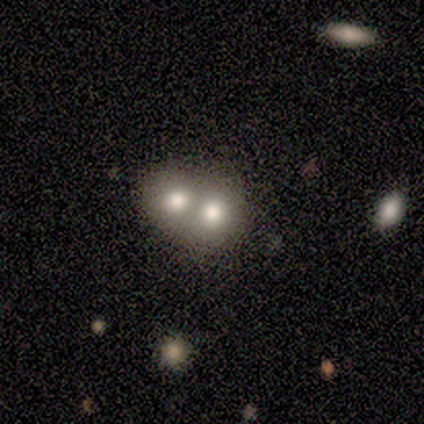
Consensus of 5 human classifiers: Smooth or featured? 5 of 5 (100%) said smooth. How rounded? 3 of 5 (60%) said round. Merging? 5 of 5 (100%) said merger.